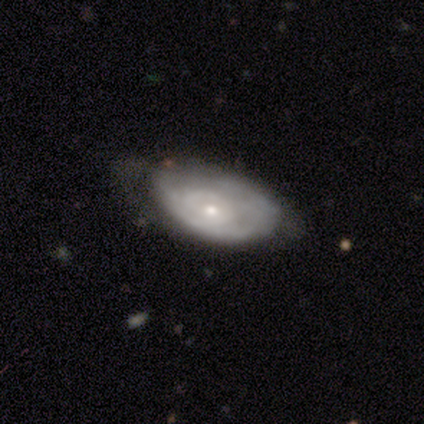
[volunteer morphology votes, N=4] Smooth or featured? featured or disk (50%)
Edge-on disk? no (100%)
Bar? no (100%)
Spiral arms? yes (100%)
Spiral winding? medium (50%, tied with loose)
Spiral arm count? 2 (100%)
Bulge size? moderate (50%, tied with small)
Merging? none (33%, tied with minor disturbance and major disturbance)